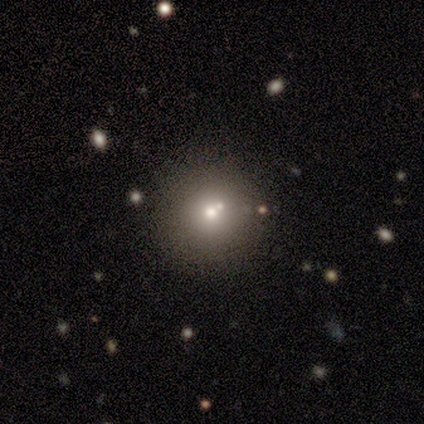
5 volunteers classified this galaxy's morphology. smooth-or-featured: smooth: 80% | star or artifact: 20% | featured or disk: 0%
  how-rounded: round: 100% | in between: 0% | cigar-shaped: 0%
  merging: none: 50% (tied) | merger: 50% (tied) | minor disturbance: 0% | major disturbance: 0%